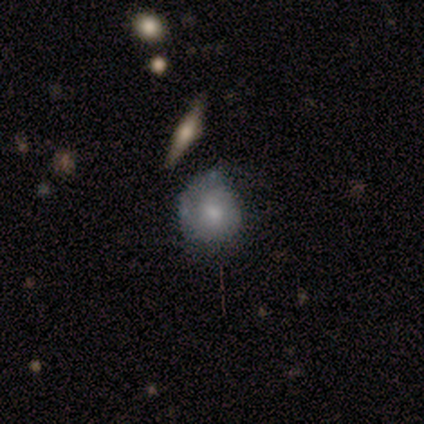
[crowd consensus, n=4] A featured or disk galaxy (75%) with no bar (67%), no spiral arms (67%) and a dominant central bulge (33%, tied with moderate and small). Merging: none (100%).